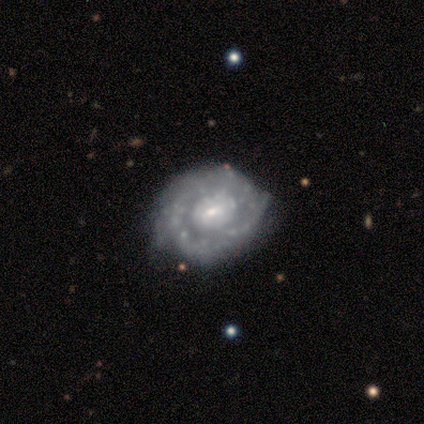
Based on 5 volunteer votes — Smooth or featured?
  - featured or disk: 100% *
  - smooth: 0%
  - star or artifact: 0%
Edge-on disk?
  - no: 100% *
  - yes: 0%
Bar?
  - weak: 60% *
  - no: 40%
  - strong: 0%
Spiral arms?
  - yes: 60% *
  - no: 40%
Spiral winding?
  - tight: 67% *
  - medium: 33%
  - loose: 0%
Spiral arm count?
  - 2: 33% * (tied)
  - 3: 33% * (tied)
  - 4: 33% * (tied)
  - 1: 0%
  - more than 4: 0%
  - can't tell: 0%
Bulge size?
  - small: 60% *
  - moderate: 40%
  - dominant: 0%
  - large: 0%
  - none: 0%
Merging?
  - none: 100% *
  - minor disturbance: 0%
  - major disturbance: 0%
  - merger: 0%